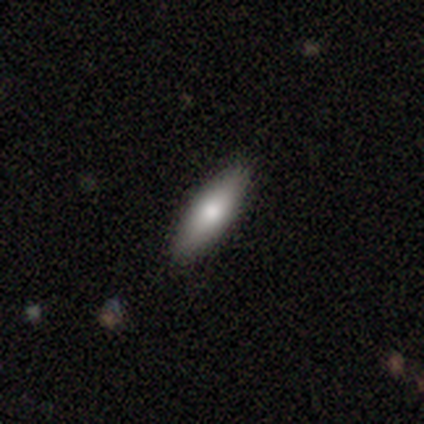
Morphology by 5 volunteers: type=smooth (80%); roundness=in between (75%); merging=none (60%).